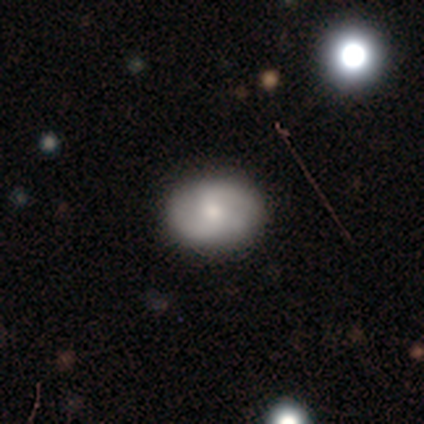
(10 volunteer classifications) Q: Smooth or featured?
A: featured or disk (70%); runner-up: smooth (30%)
Q: Edge-on disk?
A: no (100%)
Q: Bar?
A: weak (71%); runner-up: strong (14%)
Q: Spiral arms?
A: yes (100%)
Q: Spiral winding?
A: medium (57%); runner-up: loose (29%)
Q: Spiral arm count?
A: 2 (100%)
Q: Bulge size?
A: moderate (43%); runner-up: large (29%)
Q: Merging?
A: none (90%); runner-up: minor disturbance (10%)